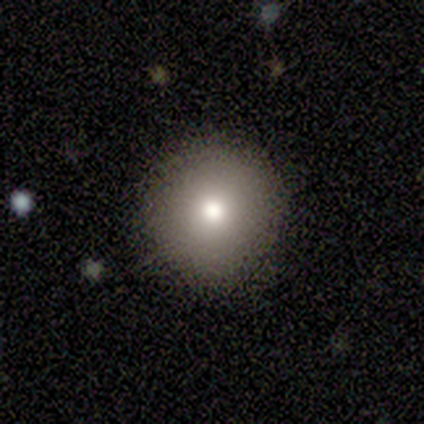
Morphology: type=smooth (80%); roundness=round (100%); merging=none (100%).